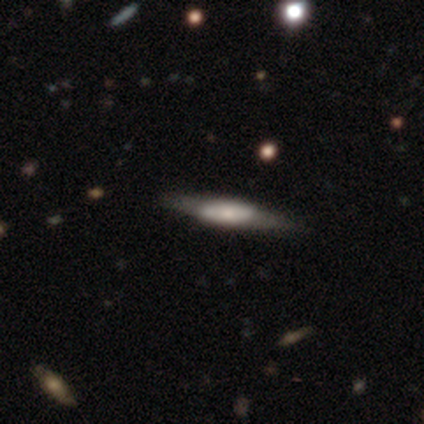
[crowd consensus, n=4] Smooth or featured? smooth (50%, tied with featured or disk)
How rounded? in between (100%)
Merging? none (50%)